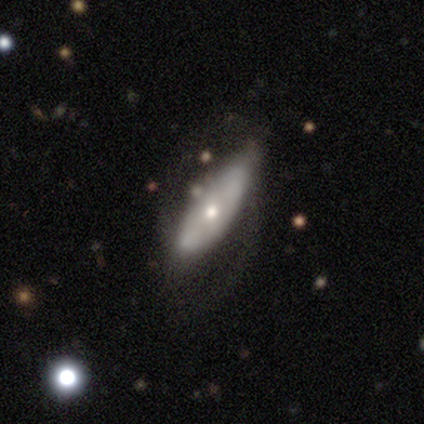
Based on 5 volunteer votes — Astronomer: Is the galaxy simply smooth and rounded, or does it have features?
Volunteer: featured or disk — 60% (runner-up: smooth, 40%).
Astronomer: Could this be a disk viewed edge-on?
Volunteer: no — 67%.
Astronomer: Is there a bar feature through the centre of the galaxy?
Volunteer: no — 100%.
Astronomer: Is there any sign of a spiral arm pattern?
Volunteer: no — 100%.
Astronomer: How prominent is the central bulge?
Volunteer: moderate — 100%.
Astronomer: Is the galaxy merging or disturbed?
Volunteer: minor disturbance — 80%.